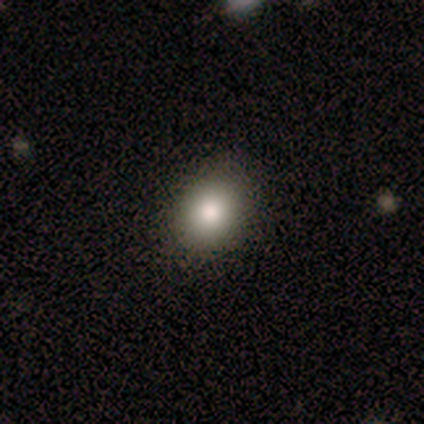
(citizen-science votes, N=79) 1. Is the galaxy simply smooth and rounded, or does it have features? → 89% smooth, 10% star or artifact, 1% featured or disk.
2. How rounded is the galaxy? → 56% round, 43% in between, 1% cigar-shaped.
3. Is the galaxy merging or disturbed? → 59% none, 4% major disturbance, 1% minor disturbance, 0% merger.